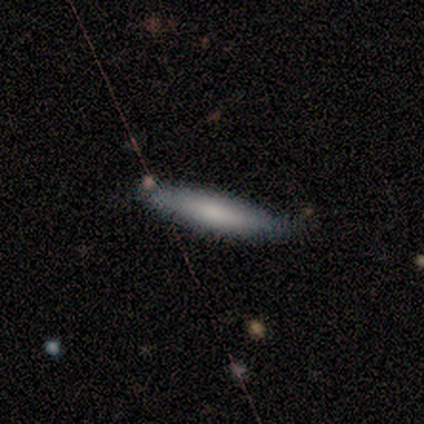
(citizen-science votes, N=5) This is clearly a smooth galaxy (100%). How rounded: likely cigar-shaped (60%). Merging: clearly none (80%).